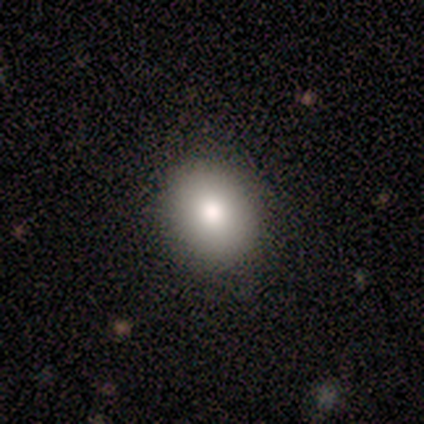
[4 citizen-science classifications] Smooth or featured? smooth (100%)
How rounded? round (75%)
Merging? none (75%)